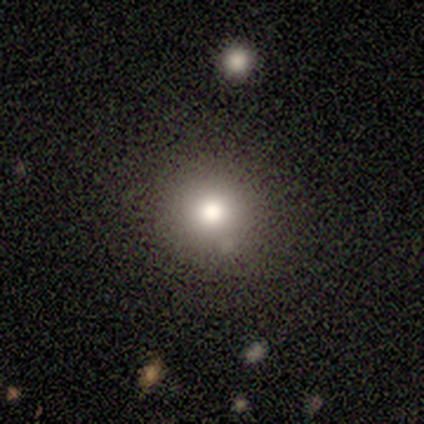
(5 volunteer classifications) Smooth or featured: smooth — 80% (star or artifact — 20%)
How rounded: round — 100%
Merging: none — 100%